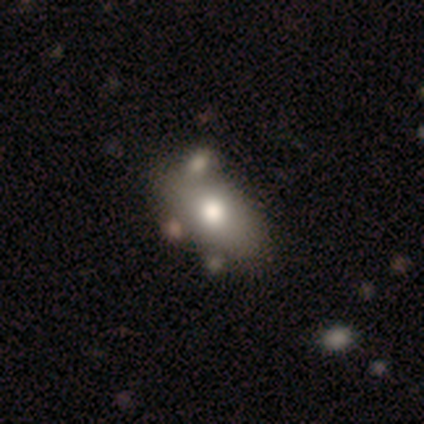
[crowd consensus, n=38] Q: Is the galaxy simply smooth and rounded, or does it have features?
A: smooth — 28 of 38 (74%).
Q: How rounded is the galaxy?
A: in between — 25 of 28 (89%).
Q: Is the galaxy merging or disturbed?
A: none — 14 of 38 (37%, tied with merger).